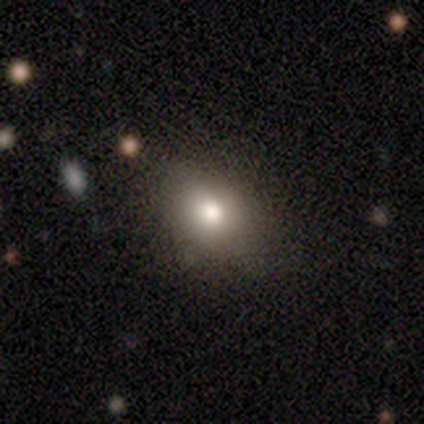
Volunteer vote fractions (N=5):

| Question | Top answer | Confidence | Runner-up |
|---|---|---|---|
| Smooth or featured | smooth | 80% | star or artifact (20%) |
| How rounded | in between | 75% | round (25%) |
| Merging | none | 75% | major disturbance (25%) |